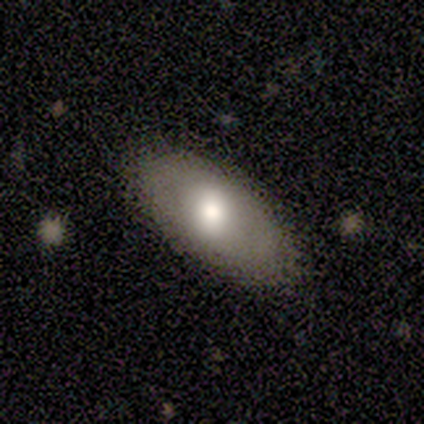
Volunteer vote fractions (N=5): smooth-or-featured: smooth: 100% | featured or disk: 0% | star or artifact: 0%
  how-rounded: in between: 80% | cigar-shaped: 20% | round: 0%
  merging: none: 60% | minor disturbance: 40% | major disturbance: 0% | merger: 0%